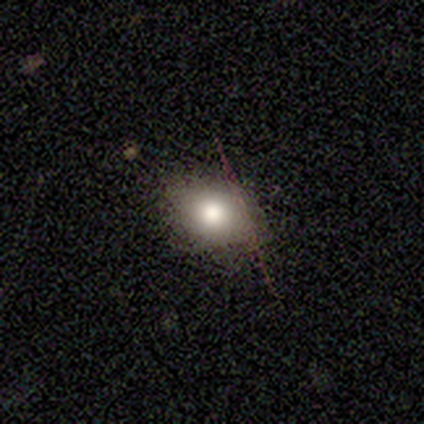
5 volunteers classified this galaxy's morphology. smooth-or-featured: smooth: 80% | star or artifact: 20% | featured or disk: 0%
  how-rounded: round: 50% (tied) | in between: 50% (tied) | cigar-shaped: 0%
  merging: none: 75% | major disturbance: 25% | minor disturbance: 0% | merger: 0%